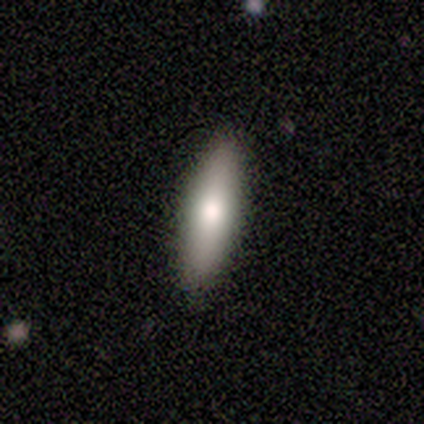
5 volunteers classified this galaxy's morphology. Overall: smooth (80%). How rounded: cigar-shaped (75%). Merging: none (100%).